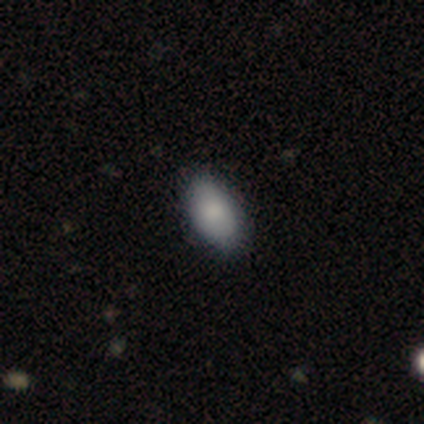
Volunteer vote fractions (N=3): Smooth or featured? 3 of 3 (100%) said smooth. How rounded? 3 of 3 (100%) said in between. Merging? 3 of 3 (100%) said none.